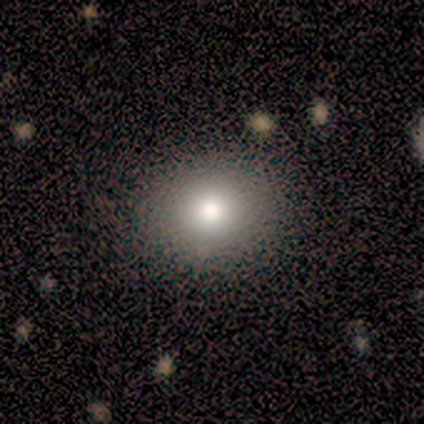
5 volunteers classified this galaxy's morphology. A smooth galaxy with no disk features (80%) that is round (75%). Merging: none (100%).